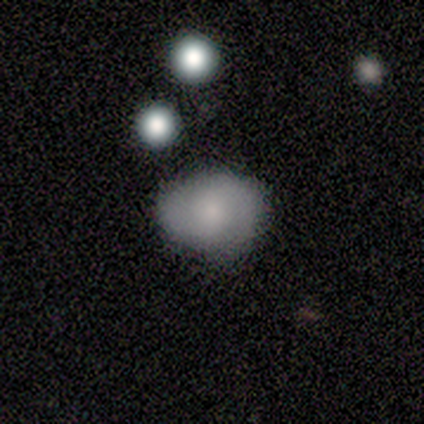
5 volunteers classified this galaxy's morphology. smooth-or-featured: smooth: 80% | featured or disk: 20% | star or artifact: 0%
  how-rounded: round: 75% | in between: 25% | cigar-shaped: 0%
  merging: none: 80% | minor disturbance: 20% | major disturbance: 0% | merger: 0%